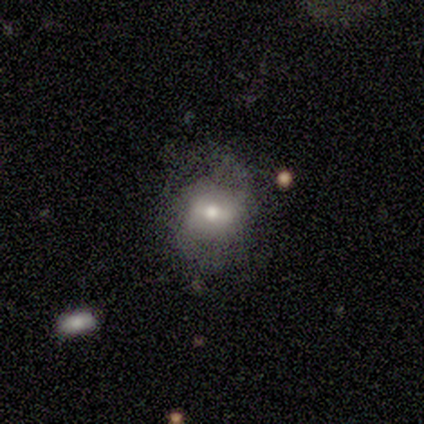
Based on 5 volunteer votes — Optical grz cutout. It shows a smooth galaxy with no disk features (60%) that is round (100%). Merging: none (60%).